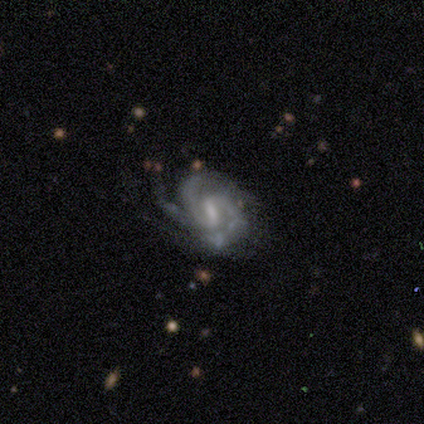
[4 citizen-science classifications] Smooth or featured? 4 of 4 (100%) said featured or disk. Edge-on disk? 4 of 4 (100%) said no. Bar? 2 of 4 (50%, tied with weak) said strong. Spiral arms? 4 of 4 (100%) said yes. Spiral winding? 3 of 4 (75%) said medium. Spiral arm count? 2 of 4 (50%, tied with can't tell) said 3. Bulge size? 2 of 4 (50%, tied with small) said moderate. Merging? 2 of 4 (50%) said minor disturbance.